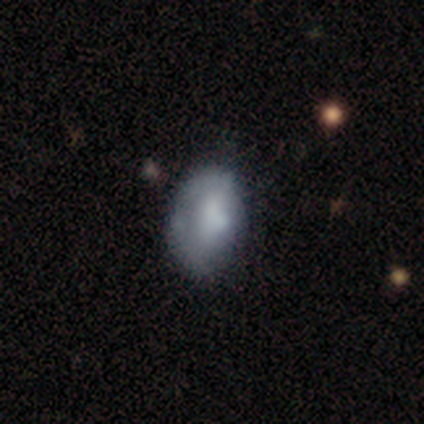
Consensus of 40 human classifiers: Overall: smooth (52%; featured or disk 45%). How rounded: in between (90%). Merging: none (36%; minor disturbance 33%).